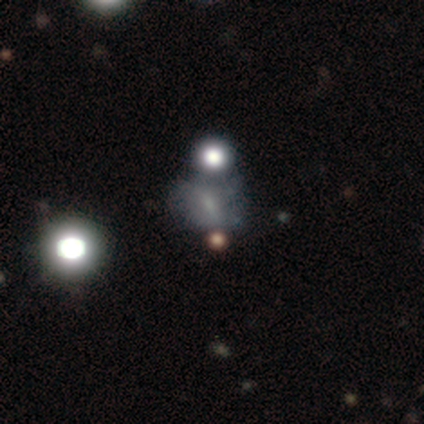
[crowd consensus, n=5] Overall: smooth (40%, tied with star or artifact). How rounded: in between (100%). Merging: none (67%; minor disturbance 33%).